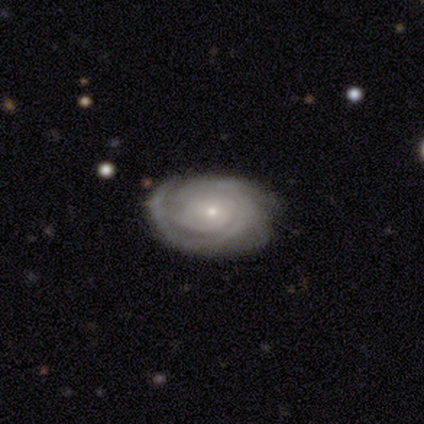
Volunteers were most divided on "spiral arm count": can't tell: 44%, 3: 19%, 4: 19%, 1: 6%, 2: 6%, more than 4: 6%. More confident: spiral arms — yes (100%); edge-on disk — no (97%); smooth or featured — featured or disk (85%); bulge size — small (81%); bar — no (78%); merging — none (75%); spiral winding — tight (69%).